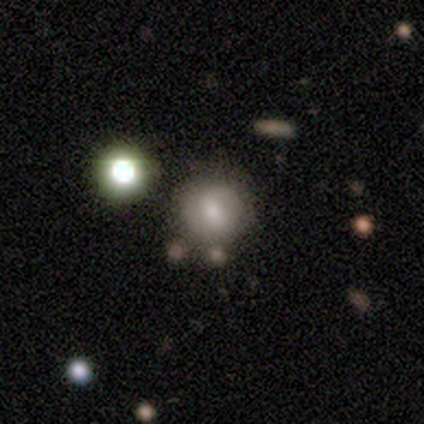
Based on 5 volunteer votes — Smooth or featured? smooth (80%)
How rounded? round (100%)
Merging? none (100%)